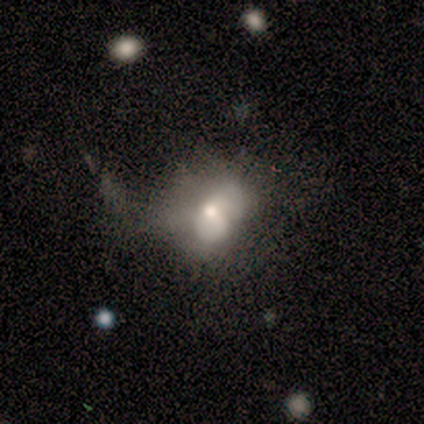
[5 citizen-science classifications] Smooth or featured: smooth — 40% (tied with featured or disk — 40%)
How rounded: in between — 100%
Merging: major disturbance — 50% (none — 25%)